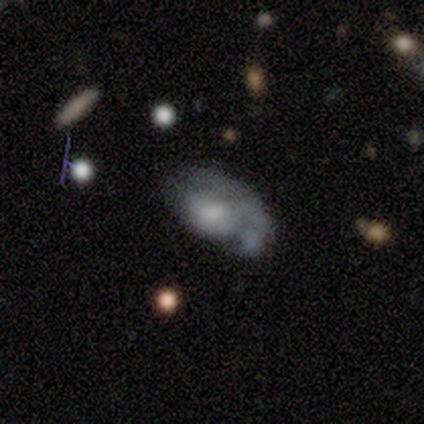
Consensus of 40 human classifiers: Smooth or featured? featured or disk (57%)
Edge-on disk? no (100%)
Bar? no (70%)
Spiral arms? no (52%)
Bulge size? none (43%)
Merging? major disturbance (34%)